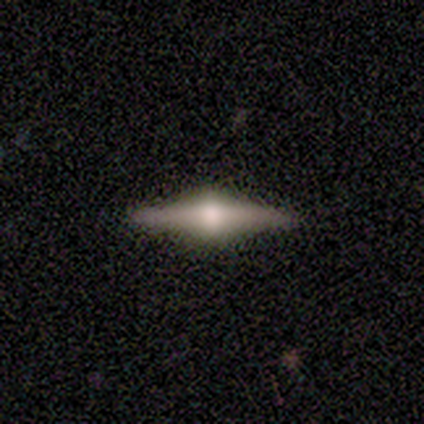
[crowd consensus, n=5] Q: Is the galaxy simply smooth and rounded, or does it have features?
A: featured or disk — 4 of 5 (80%).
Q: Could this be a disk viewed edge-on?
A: yes — 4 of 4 (100%).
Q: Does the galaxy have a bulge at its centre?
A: rounded — 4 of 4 (100%).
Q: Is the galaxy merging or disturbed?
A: none — 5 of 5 (100%).